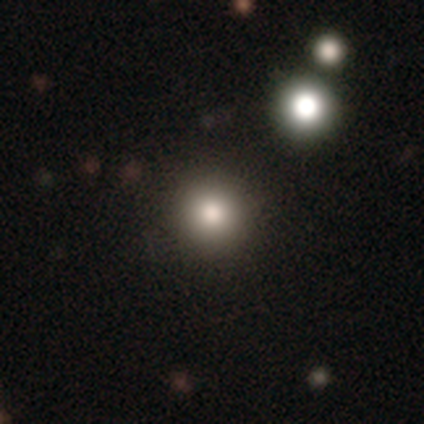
Smooth or featured: smooth — 100%
How rounded: round — 100%
Merging: none — 100%